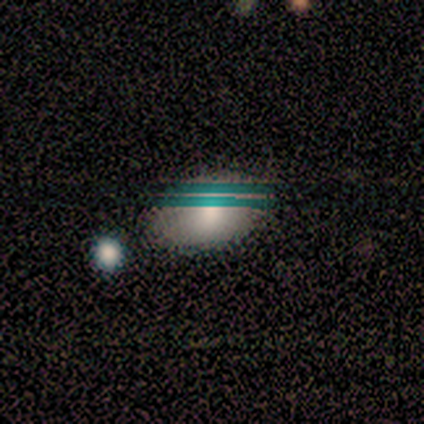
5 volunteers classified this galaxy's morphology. smooth-or-featured: smooth: 80% | star or artifact: 20% | featured or disk: 0%
  how-rounded: in between: 75% | round: 25% | cigar-shaped: 0%
  merging: none: 75% | minor disturbance: 25% | major disturbance: 0% | merger: 0%